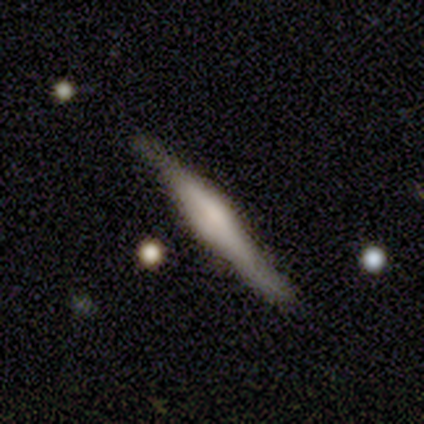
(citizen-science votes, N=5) Smooth or featured? 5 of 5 (100%) said featured or disk. Edge-on disk? 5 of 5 (100%) said yes. Edge-on bulge? 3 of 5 (60%) said boxy. Merging? 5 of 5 (100%) said none.